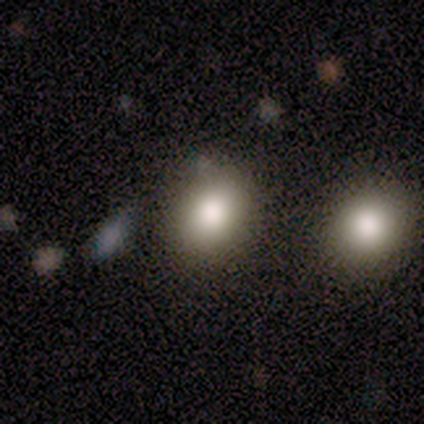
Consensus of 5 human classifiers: Smooth or featured: smooth — 60% (featured or disk — 20%)
How rounded: round — 67% (in between — 33%)
Merging: none — 100%